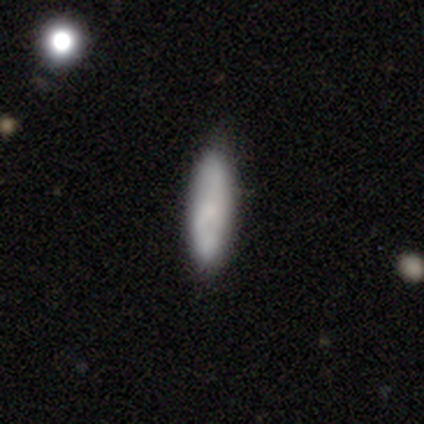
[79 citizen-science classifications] Smooth or featured? 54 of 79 (68%) said smooth. How rounded? 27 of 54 (50%, tied with cigar-shaped) said in between. Merging? 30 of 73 (41%) said none.